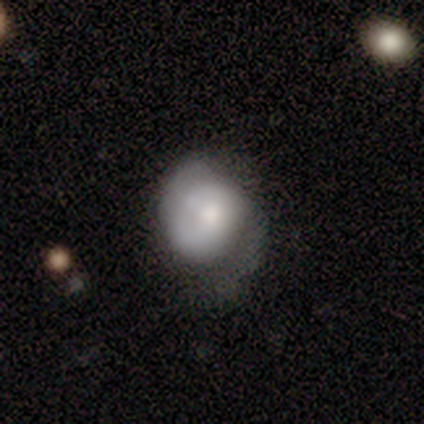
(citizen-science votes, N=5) Smooth or featured?
  - featured or disk: 60% *
  - smooth: 40%
  - star or artifact: 0%
Edge-on disk?
  - no: 67% *
  - yes: 33%
Bar?
  - no: 100% *
  - strong: 0%
  - weak: 0%
Spiral arms?
  - yes: 50% * (tied)
  - no: 50% * (tied)
Spiral winding?
  - medium: 100% *
  - tight: 0%
  - loose: 0%
Spiral arm count?
  - 2: 100% *
  - 1: 0%
  - 3: 0%
  - 4: 0%
  - more than 4: 0%
  - can't tell: 0%
Bulge size?
  - moderate: 50% * (tied)
  - small: 50% * (tied)
  - dominant: 0%
  - large: 0%
  - none: 0%
Merging?
  - none: 40% * (tied)
  - major disturbance: 40% * (tied)
  - minor disturbance: 20%
  - merger: 0%